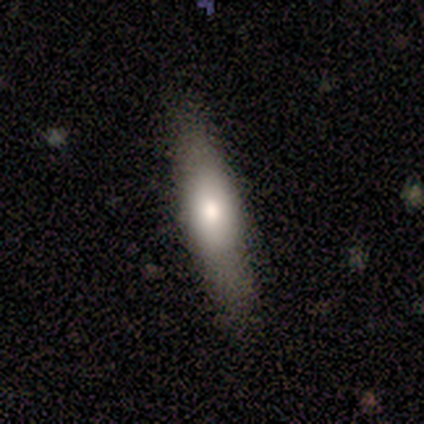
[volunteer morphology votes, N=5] This is clearly a smooth galaxy (80%). How rounded: likely cigar-shaped (75%). Merging: likely none (60%).